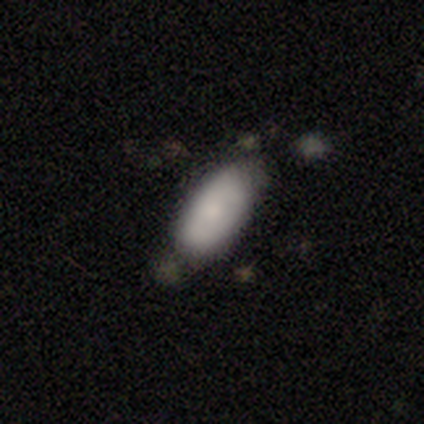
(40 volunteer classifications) Smooth or featured?
  - smooth: 78% *
  - featured or disk: 20%
  - star or artifact: 2%
How rounded?
  - in between: 90% *
  - cigar-shaped: 10%
  - round: 0%
Merging?
  - none: 67% *
  - minor disturbance: 23%
  - merger: 8%
  - major disturbance: 3%